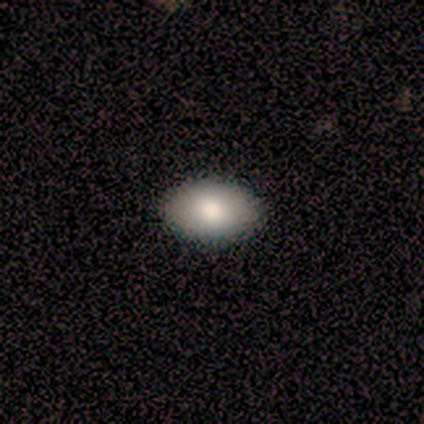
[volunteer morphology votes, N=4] smooth 50%, featured or disk 25%, star or artifact 25%. Down the decision tree: how rounded — round (50%, tied with in between); merging — none (100%).